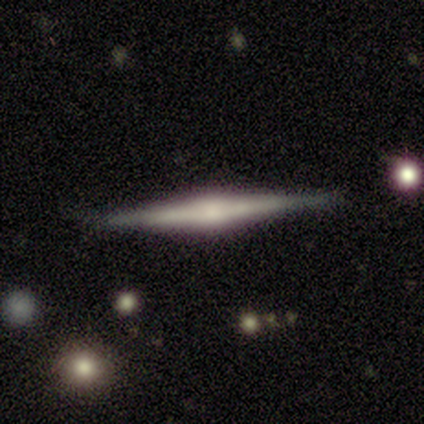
Smooth or featured? featured or disk (100%)
Edge-on disk? yes (100%)
Edge-on bulge? rounded (100%)
Merging? none (100%)